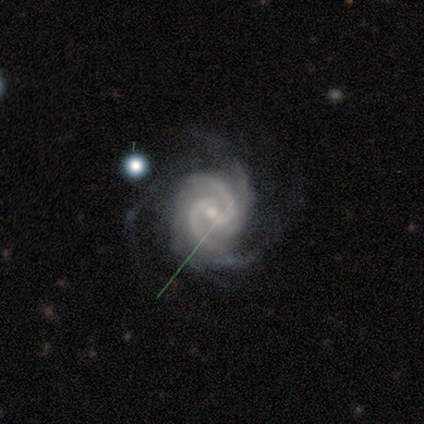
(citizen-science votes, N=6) Smooth or featured?
  - featured or disk: 100% *
  - smooth: 0%
  - star or artifact: 0%
Edge-on disk?
  - no: 100% *
  - yes: 0%
Bar?
  - weak: 67% *
  - strong: 33%
  - no: 0%
Spiral arms?
  - yes: 100% *
  - no: 0%
Spiral winding?
  - tight: 67% *
  - medium: 33%
  - loose: 0%
Spiral arm count?
  - 2: 50% *
  - 3: 33%
  - can't tell: 17%
  - 1: 0%
  - 4: 0%
  - more than 4: 0%
Bulge size?
  - small: 67% *
  - moderate: 33%
  - dominant: 0%
  - large: 0%
  - none: 0%
Merging?
  - none: 50% *
  - minor disturbance: 33%
  - major disturbance: 17%
  - merger: 0%